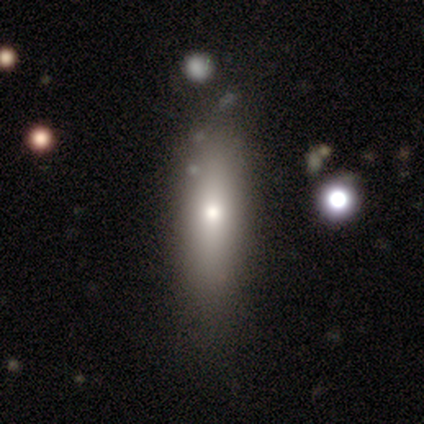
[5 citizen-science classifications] Smooth or featured? smooth (100%)
How rounded? cigar-shaped (60%)
Merging? none (80%)